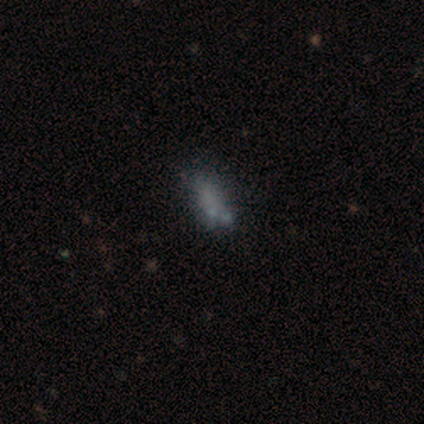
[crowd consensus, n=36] Smooth or featured? smooth (56%)
How rounded? in between (70%)
Merging? none (66%)